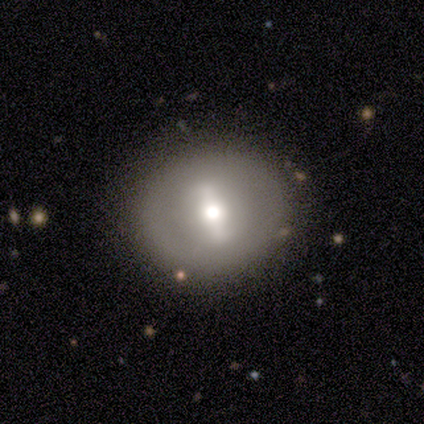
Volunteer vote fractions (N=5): A featured or disk galaxy (60%) with a strong bar (33%, tied with weak and no), no spiral arms (67%) and a large central bulge (33%, tied with moderate and small). Merging: none (100%).